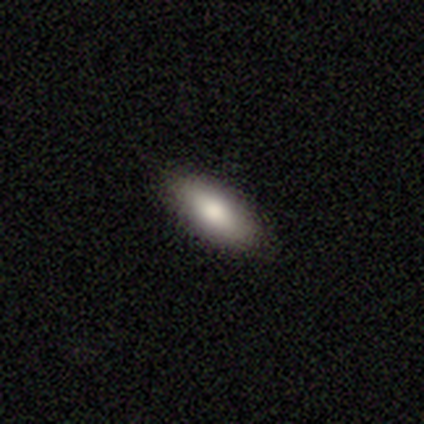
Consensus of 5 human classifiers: Overall: smooth (100%). How rounded: in between (100%). Merging: none (80%).